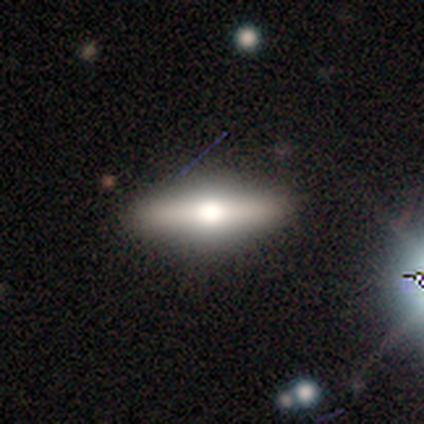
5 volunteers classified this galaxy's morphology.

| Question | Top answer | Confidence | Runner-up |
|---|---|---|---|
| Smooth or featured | featured or disk | 60% | smooth (20%) |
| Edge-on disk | yes | 100% | — |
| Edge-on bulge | rounded | 67% | boxy (33%) |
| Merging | none | 100% | — |